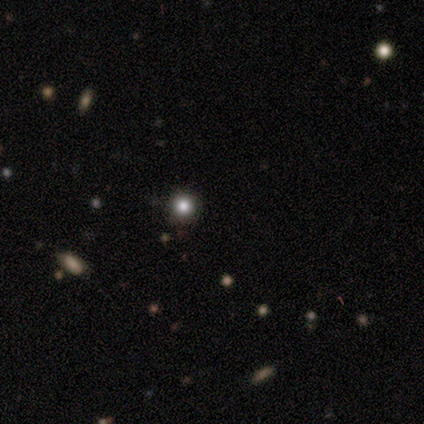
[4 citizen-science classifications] smooth 75%, star or artifact 25%, featured or disk 0%. Down the decision tree: how rounded — round (100%); merging — none (100%).